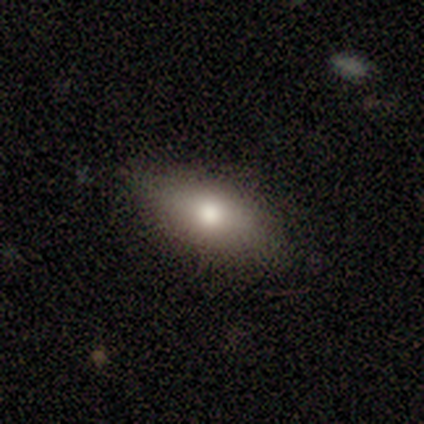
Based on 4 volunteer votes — Smooth or featured?
  - smooth: 50% *
  - featured or disk: 25%
  - star or artifact: 25%
How rounded?
  - in between: 100% *
  - round: 0%
  - cigar-shaped: 0%
Merging?
  - none: 100% *
  - minor disturbance: 0%
  - major disturbance: 0%
  - merger: 0%